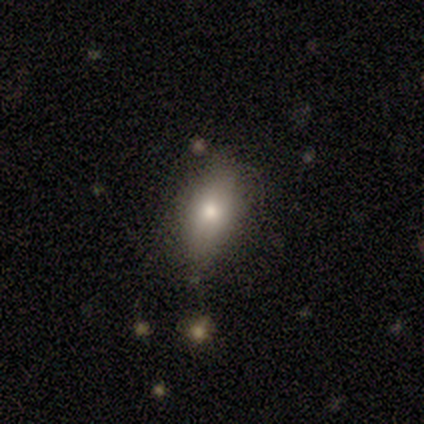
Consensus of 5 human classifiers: Morphology: type=smooth (100%); roundness=in between (100%); merging=minor disturbance (60%).